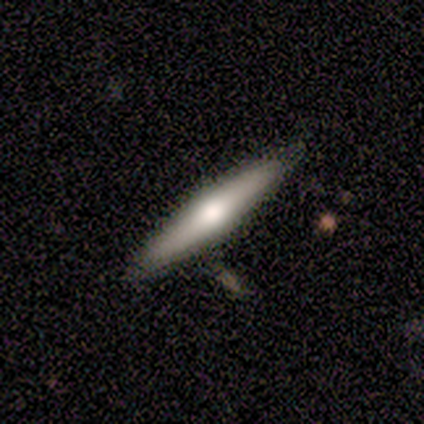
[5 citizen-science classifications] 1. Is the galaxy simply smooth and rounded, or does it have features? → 80% featured or disk, 20% smooth, 0% star or artifact.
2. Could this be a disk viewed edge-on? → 100% yes, 0% no.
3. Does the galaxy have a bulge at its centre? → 100% rounded, 0% boxy, 0% none.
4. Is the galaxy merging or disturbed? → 80% none, 20% major disturbance, 0% minor disturbance, 0% merger.